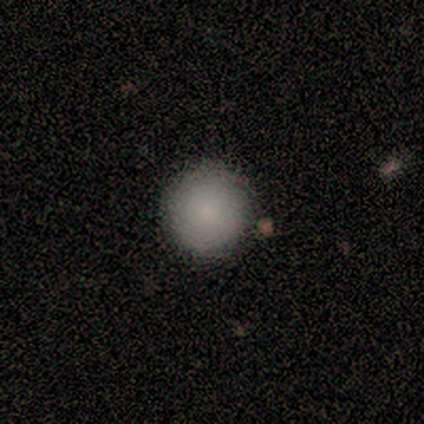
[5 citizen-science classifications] smooth 100%, featured or disk 0%, star or artifact 0%. Down the decision tree: how rounded — round (100%); merging — none (80%).